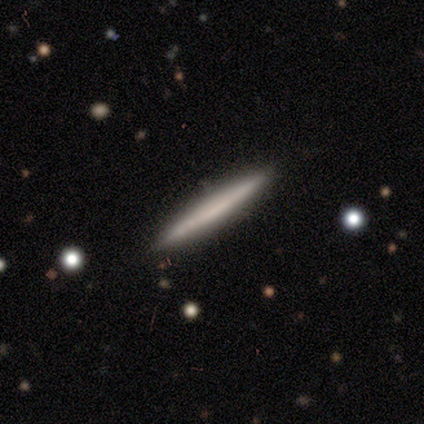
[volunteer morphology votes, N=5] A smooth galaxy with no disk features (60%) that is cigar-shaped (100%). Merging: none (100%).